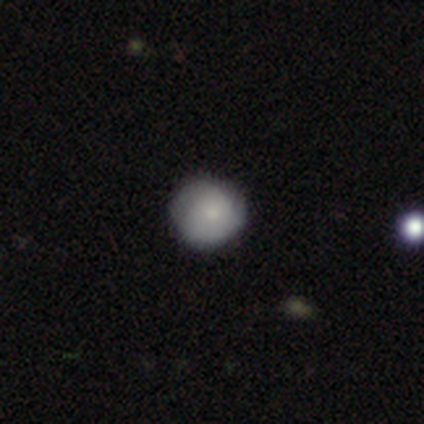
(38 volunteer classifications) This is likely a smooth galaxy (68%). How rounded: clearly round (96%). Merging: clearly none (86%).